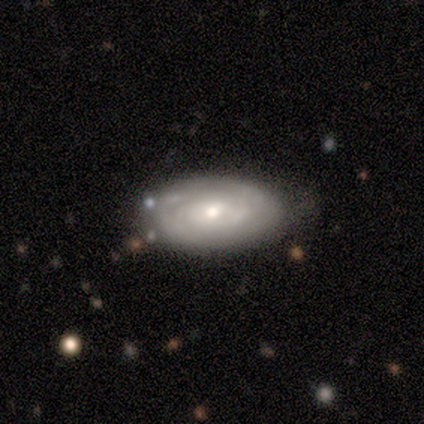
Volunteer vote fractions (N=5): smooth_or_featured: featured or disk (p=0.60) [alt: smooth p=0.40]
disk_edge_on: no (p=1.00)
bar: no (p=1.00)
has_spiral_arms: yes (p=0.67) [alt: no p=0.33]
spiral_winding: tight (p=1.00)
spiral_arm_count: 3 (p=0.50) [tied with: can't tell p=0.50]
bulge_size: small (p=0.67) [alt: moderate p=0.33]
merging: none (p=0.80) [alt: minor disturbance p=0.20]